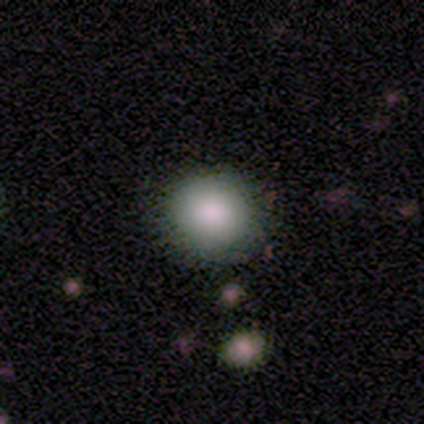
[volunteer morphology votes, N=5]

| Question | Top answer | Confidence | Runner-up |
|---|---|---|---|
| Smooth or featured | smooth | 100% | — |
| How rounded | round | 60% | in between (40%) |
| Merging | none | 100% | — |